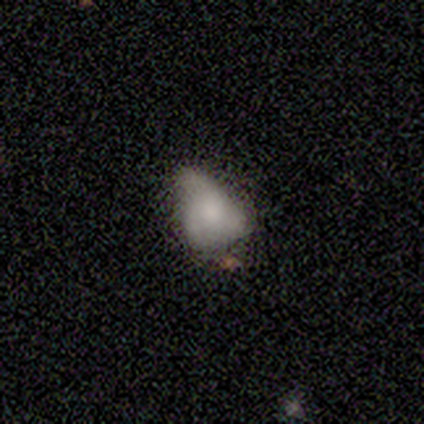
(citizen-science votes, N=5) A smooth galaxy with no disk features (80%) that is in between round and cigar-shaped (100%).

Vote fractions:
- Smooth or featured? smooth: 80% / featured or disk: 20% / star or artifact: 0%
- How rounded? in between: 100% / round: 0% / cigar-shaped: 0%
- Merging? minor disturbance: 40% (tied) / major disturbance: 40% (tied) / none: 20% / merger: 0%